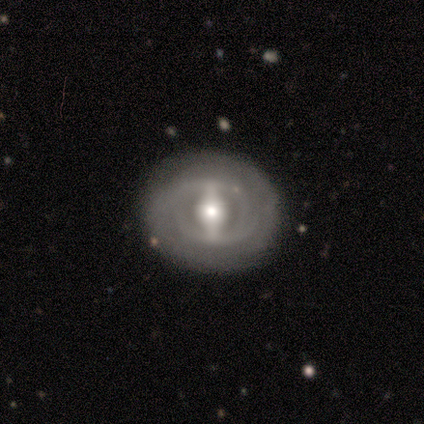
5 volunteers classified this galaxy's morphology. Smooth or featured: featured or disk — 100%
Edge-on disk: no — 80% (yes — 20%)
Bar: strong — 75% (no — 25%)
Spiral arms: yes — 100%
Spiral winding: tight — 50% (tied with medium — 50%)
Spiral arm count: 2 — 75% (can't tell — 25%)
Bulge size: moderate — 100%
Merging: none — 100%